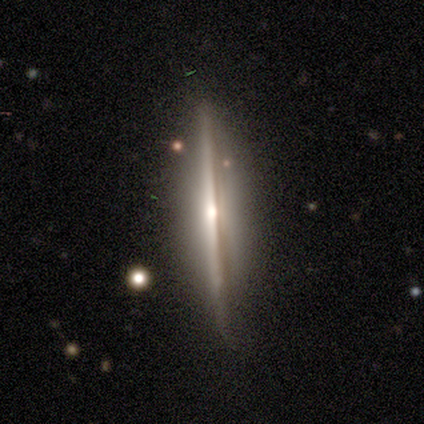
Q: Smooth or featured?
A: featured or disk (100%)
Q: Edge-on disk?
A: yes (100%)
Q: Edge-on bulge?
A: rounded (80%); runner-up: none (20%)
Q: Merging?
A: none (80%); runner-up: minor disturbance (20%)